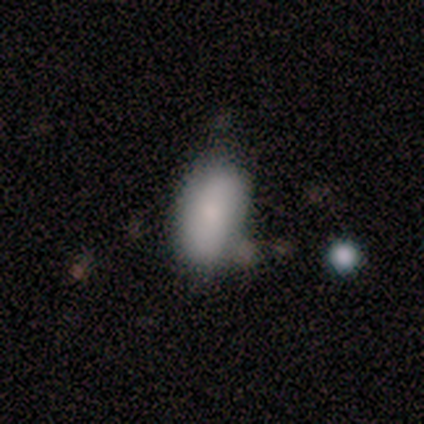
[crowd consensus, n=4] smooth_or_featured: smooth (p=0.75) [alt: star or artifact p=0.25]
how_rounded: in between (p=1.00)
merging: none (p=1.00)